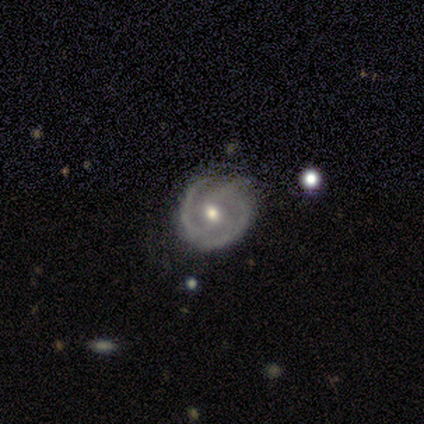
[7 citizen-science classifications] Q: Smooth or featured?
A: featured or disk (86%); runner-up: star or artifact (14%)
Q: Edge-on disk?
A: no (100%)
Q: Bar?
A: no (67%); runner-up: strong (17%)
Q: Spiral arms?
A: yes (100%)
Q: Spiral winding?
A: medium (50%); runner-up: tight (33%)
Q: Spiral arm count?
A: 2 (33%); tied with: 3 (33%)
Q: Bulge size?
A: moderate (67%); runner-up: small (33%)
Q: Merging?
A: none (67%); runner-up: minor disturbance (33%)